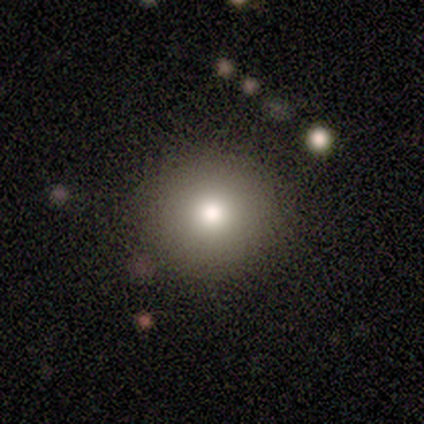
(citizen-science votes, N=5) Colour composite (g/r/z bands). It shows a smooth galaxy with no disk features (60%) that is round (100%). Merging: none (100%).